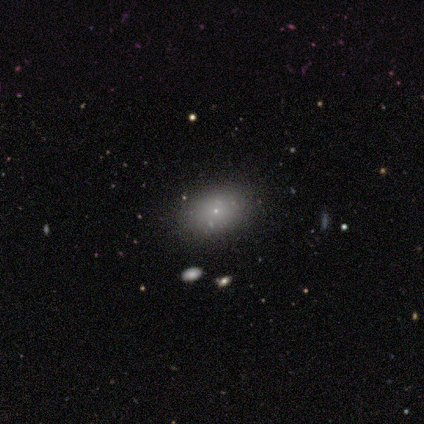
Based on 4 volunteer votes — Smooth or featured: smooth — 50% (tied with featured or disk — 50%)
How rounded: in between — 100%
Merging: none — 100%